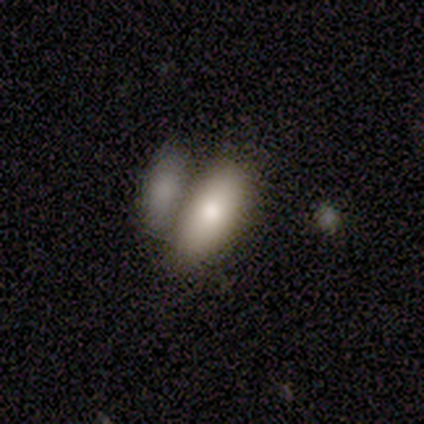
A smooth galaxy with no disk features (60%) that is in between round and cigar-shaped (67%).

Vote fractions:
- Smooth or featured? smooth: 60% / featured or disk: 40% / star or artifact: 0%
- How rounded? in between: 67% / cigar-shaped: 33% / round: 0%
- Merging? none: 80% / merger: 20% / minor disturbance: 0% / major disturbance: 0%